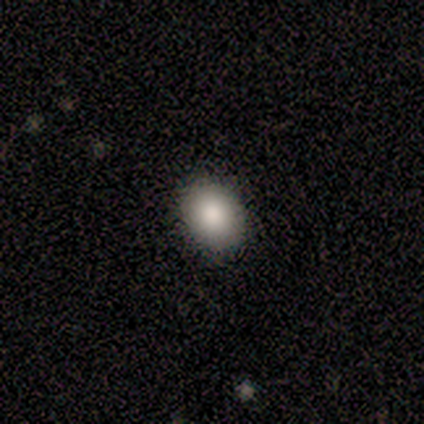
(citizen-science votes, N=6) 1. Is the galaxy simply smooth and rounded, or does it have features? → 67% smooth, 33% featured or disk, 0% star or artifact.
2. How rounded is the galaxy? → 50% round (tied), 50% in between (tied), 0% cigar-shaped.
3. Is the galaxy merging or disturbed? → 100% none, 0% minor disturbance, 0% major disturbance, 0% merger.